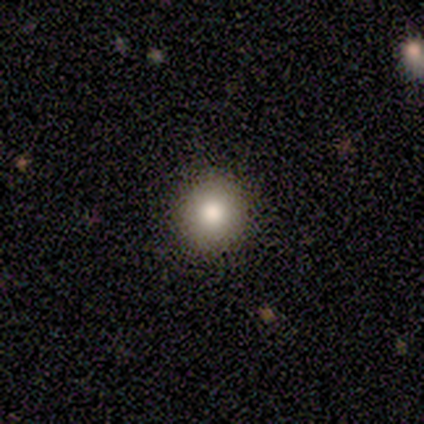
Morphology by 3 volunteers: Q: Smooth or featured?
A: smooth (100%)
Q: How rounded?
A: round (67%); runner-up: in between (33%)
Q: Merging?
A: none (100%)